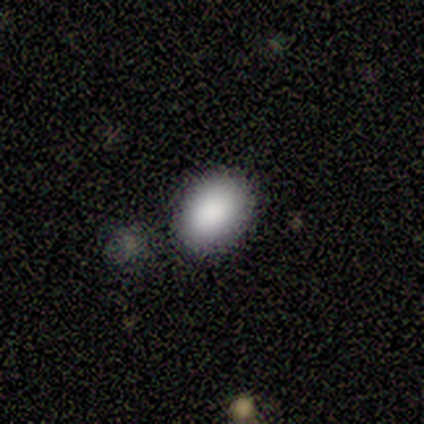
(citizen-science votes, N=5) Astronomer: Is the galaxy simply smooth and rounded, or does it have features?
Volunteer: smooth — 100%.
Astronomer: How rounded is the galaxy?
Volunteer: in between — 60% (runner-up: round, 40%).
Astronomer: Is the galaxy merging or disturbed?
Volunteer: none — 80%.